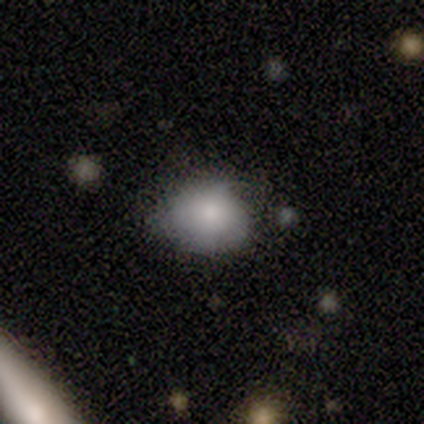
smooth 89%, featured or disk 11%, star or artifact 0%. Down the decision tree: how rounded — round (62%); merging — none (56%).